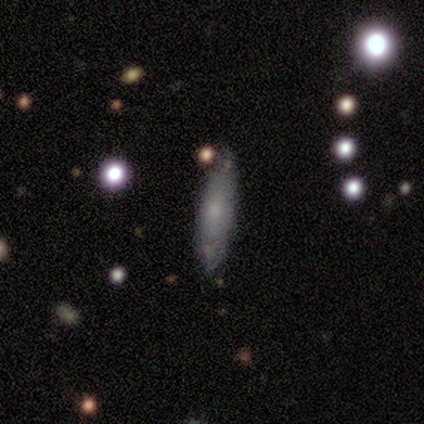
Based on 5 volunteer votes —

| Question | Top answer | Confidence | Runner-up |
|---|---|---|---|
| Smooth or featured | smooth | 40% | tied: star or artifact (40%) |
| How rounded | in between | 100% | — |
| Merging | none | 100% | — |